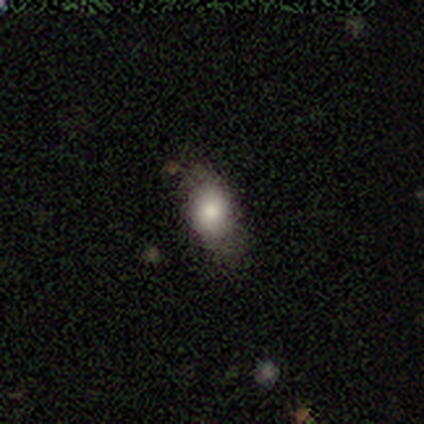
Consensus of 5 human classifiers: Volunteers were most divided on "merging": none: 40%, minor disturbance: 20%, major disturbance: 20%, merger: 20%. More confident: smooth or featured — smooth (80%); how rounded — in between (75%).